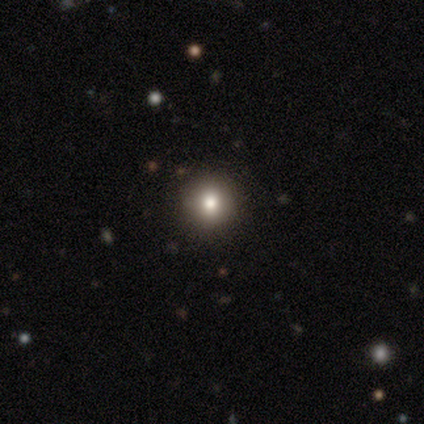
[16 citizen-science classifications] Q: Smooth or featured?
A: smooth (81%); runner-up: featured or disk (12%)
Q: How rounded?
A: round (85%); runner-up: in between (15%)
Q: Merging?
A: none (73%); runner-up: minor disturbance (20%)